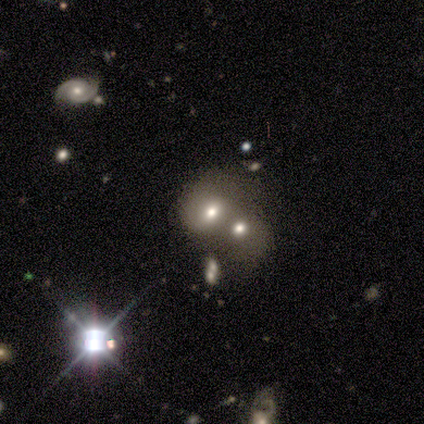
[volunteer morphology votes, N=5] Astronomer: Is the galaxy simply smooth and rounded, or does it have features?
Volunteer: smooth — 80%.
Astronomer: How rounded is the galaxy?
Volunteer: round — 50%, tied with in between at 50%.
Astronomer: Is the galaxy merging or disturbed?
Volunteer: merger — 80%.